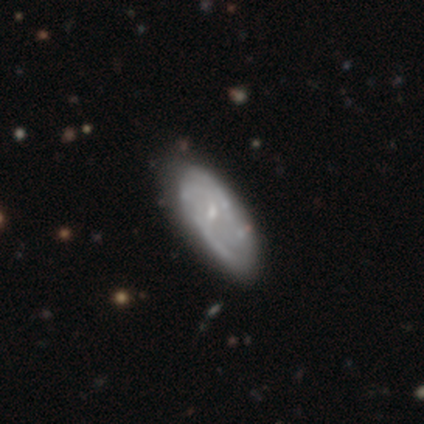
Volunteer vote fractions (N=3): This is likely a smooth galaxy (67%). How rounded: clearly in between (100%). Merging: likely none (67%).